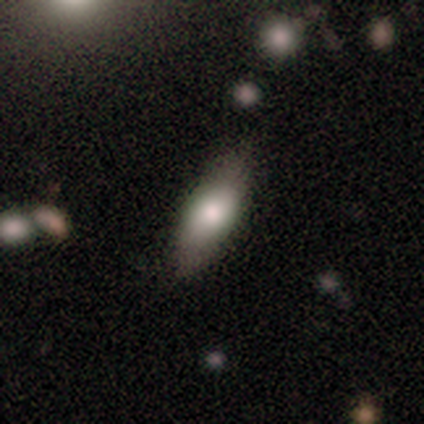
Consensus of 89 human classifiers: Smooth or featured? 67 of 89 (75%) said smooth. How rounded? 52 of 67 (78%) said in between. Merging? 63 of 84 (75%) said none.